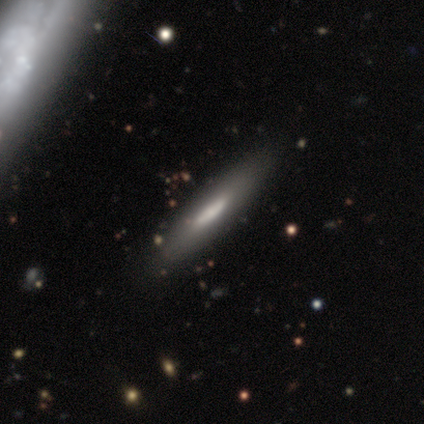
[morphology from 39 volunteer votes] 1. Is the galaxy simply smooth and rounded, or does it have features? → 51% featured or disk, 46% smooth, 3% star or artifact.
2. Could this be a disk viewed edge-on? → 80% yes, 20% no.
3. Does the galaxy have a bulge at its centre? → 56% none, 31% rounded, 12% boxy.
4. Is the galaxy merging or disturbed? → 82% none, 8% minor disturbance, 5% major disturbance, 5% merger.